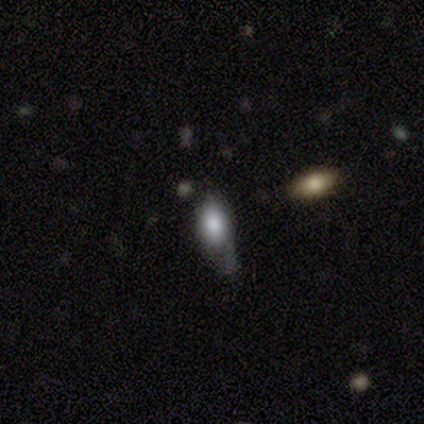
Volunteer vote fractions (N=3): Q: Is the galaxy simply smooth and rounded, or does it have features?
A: smooth — 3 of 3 (100%).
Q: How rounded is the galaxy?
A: in between — 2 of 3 (67%).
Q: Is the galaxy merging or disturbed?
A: major disturbance — 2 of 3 (67%).